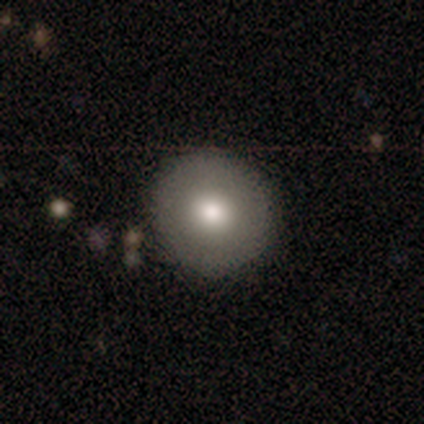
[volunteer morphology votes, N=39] This appears to be a smooth galaxy with no disk features (67%) that is round (92%). Merging: none (85%).